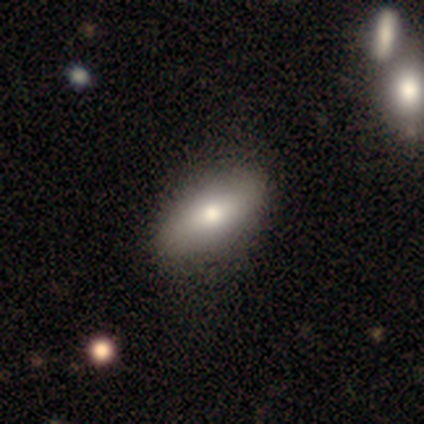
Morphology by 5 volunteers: Smooth or featured: smooth — 60% (featured or disk — 20%)
How rounded: cigar-shaped — 67% (in between — 33%)
Merging: none — 100%